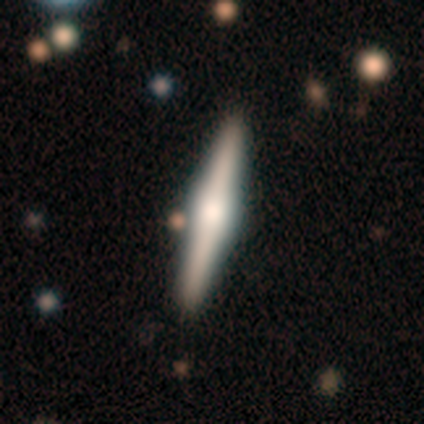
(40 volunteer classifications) smooth_or_featured: featured or disk (p=0.62) [alt: smooth p=0.25]
disk_edge_on: yes (p=1.00)
edge_on_bulge: rounded (p=0.80) [alt: boxy p=0.16]
merging: none (p=0.86) [alt: minor disturbance p=0.09]